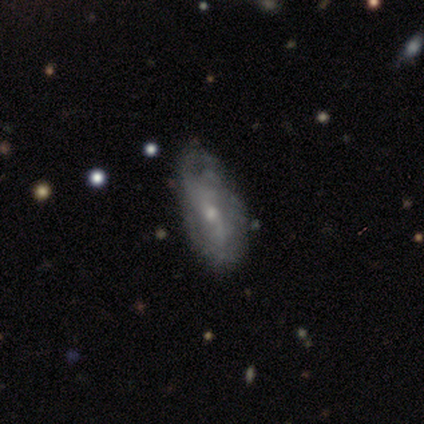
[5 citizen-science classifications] smooth-or-featured: featured or disk: 60% | smooth: 40% | star or artifact: 0%
  disk-edge-on: no: 100% | yes: 0%
    bar: no: 67% | strong: 33% | weak: 0%
    has-spiral-arms: yes: 100% | no: 0%
      spiral-winding: tight: 33% (tied) | medium: 33% (tied) | loose: 33% (tied)
      spiral-arm-count: 1: 33% (tied) | 2: 33% (tied) | can't tell: 33% (tied) | 3: 0% | 4: 0% | more than 4: 0%
    bulge-size: moderate: 67% | small: 33% | dominant: 0% | large: 0% | none: 0%
  merging: none: 80% | major disturbance: 20% | minor disturbance: 0% | merger: 0%